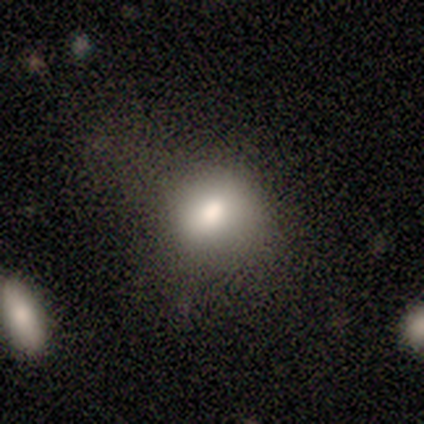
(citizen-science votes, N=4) smooth_or_featured: smooth (p=0.75) [alt: star or artifact p=0.25]
how_rounded: in between (p=1.00)
merging: none (p=0.67) [alt: major disturbance p=0.33]